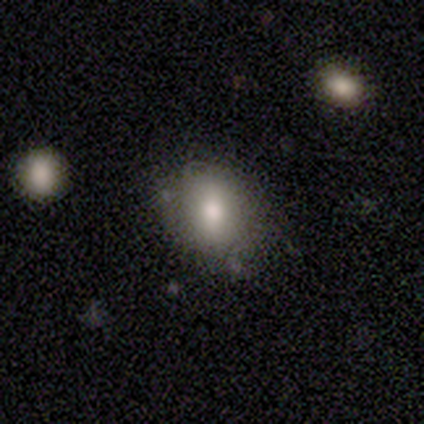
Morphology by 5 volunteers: A smooth galaxy with no disk features (100%) that is in between round and cigar-shaped (60%). Merging: none (60%).